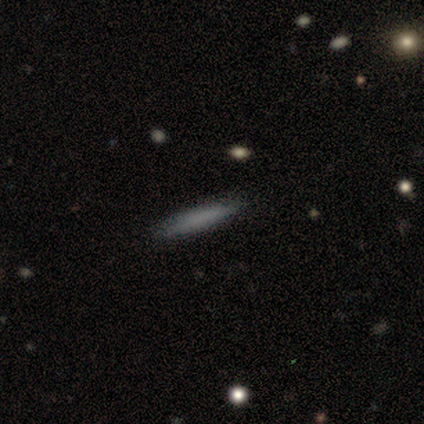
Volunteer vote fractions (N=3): Smooth or featured? smooth (100%)
How rounded? cigar-shaped (100%)
Merging? none (100%)